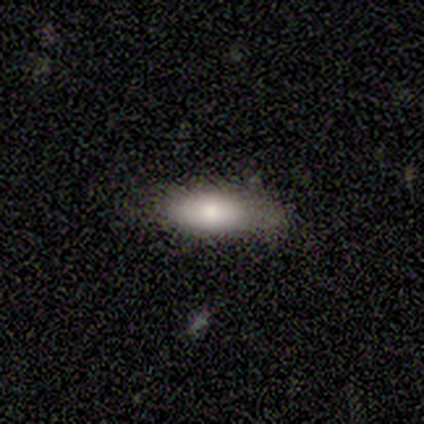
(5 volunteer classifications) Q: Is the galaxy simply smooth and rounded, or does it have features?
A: smooth — 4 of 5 (80%).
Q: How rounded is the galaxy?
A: in between — 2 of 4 (50%, tied with cigar-shaped).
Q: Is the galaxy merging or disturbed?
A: none — 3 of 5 (60%).